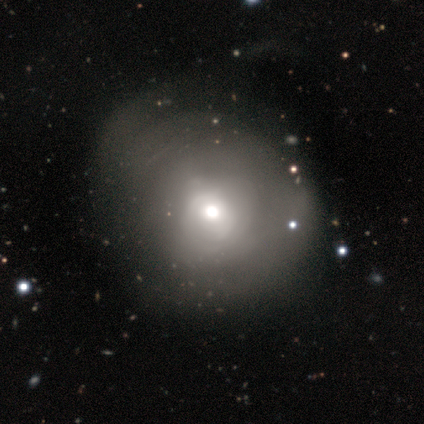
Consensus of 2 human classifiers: A smooth galaxy with no disk features (50%, tied with featured or disk) that is round (100%).

Vote fractions:
- Smooth or featured? smooth: 50% (tied) / featured or disk: 50% (tied) / star or artifact: 0%
- How rounded? round: 100% / in between: 0% / cigar-shaped: 0%
- Merging? major disturbance: 100% / none: 0% / minor disturbance: 0% / merger: 0%